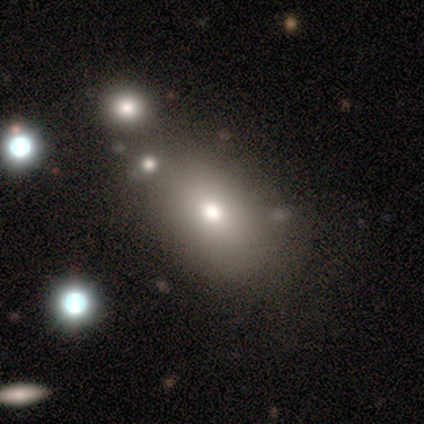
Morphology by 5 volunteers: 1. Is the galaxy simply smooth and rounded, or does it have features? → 80% smooth, 20% featured or disk, 0% star or artifact.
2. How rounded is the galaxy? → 100% in between, 0% round, 0% cigar-shaped.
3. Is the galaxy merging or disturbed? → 40% none, 20% minor disturbance, 20% major disturbance, 20% merger.